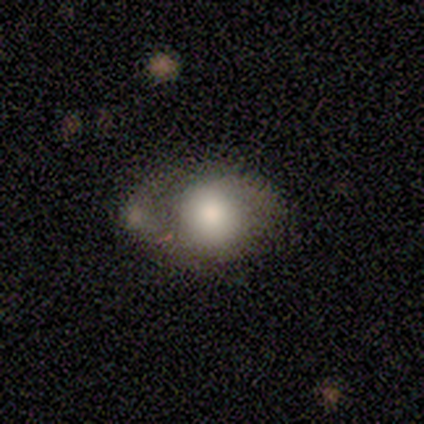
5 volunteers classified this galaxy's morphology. Overall: smooth (80%). How rounded: round (50%, tied with in between). Merging: minor disturbance (60%; major disturbance 20%).